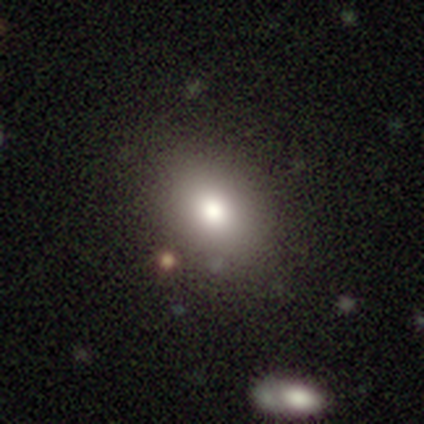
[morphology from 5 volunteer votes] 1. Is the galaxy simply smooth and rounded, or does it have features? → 80% smooth, 20% featured or disk, 0% star or artifact.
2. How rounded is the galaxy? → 100% in between, 0% round, 0% cigar-shaped.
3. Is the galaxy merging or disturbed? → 100% none, 0% minor disturbance, 0% major disturbance, 0% merger.